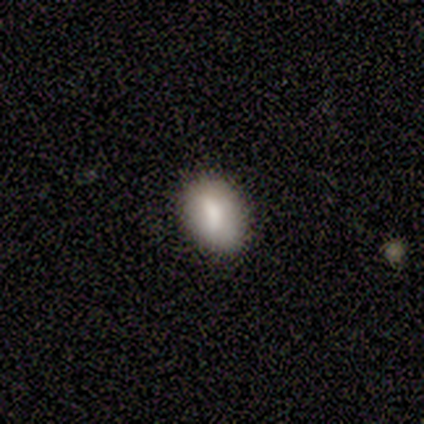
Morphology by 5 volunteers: A smooth galaxy with no disk features (100%) that is in between round and cigar-shaped (100%).

Vote fractions:
- Smooth or featured? smooth: 100% / featured or disk: 0% / star or artifact: 0%
- How rounded? in between: 100% / round: 0% / cigar-shaped: 0%
- Merging? none: 100% / minor disturbance: 0% / major disturbance: 0% / merger: 0%